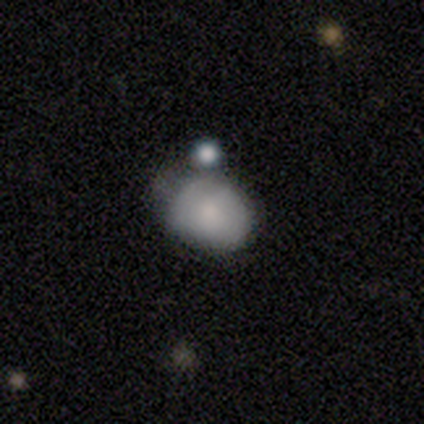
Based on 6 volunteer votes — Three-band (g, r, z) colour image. It shows a smooth galaxy with no disk features (67%) that is round (50%, tied with in between). Merging: minor disturbance (50%).